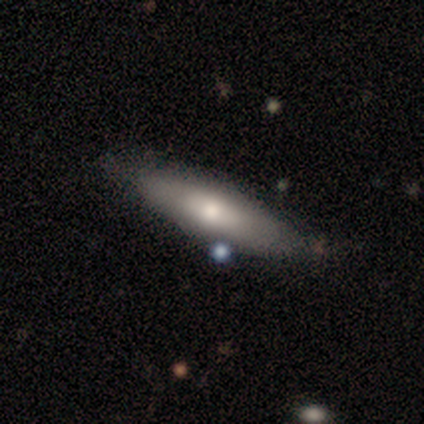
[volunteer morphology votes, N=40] Volunteers were most divided on "smooth or featured": smooth: 52%, featured or disk: 38%, star or artifact: 10%. More confident: merging — none (78%); how rounded — cigar-shaped (62%).